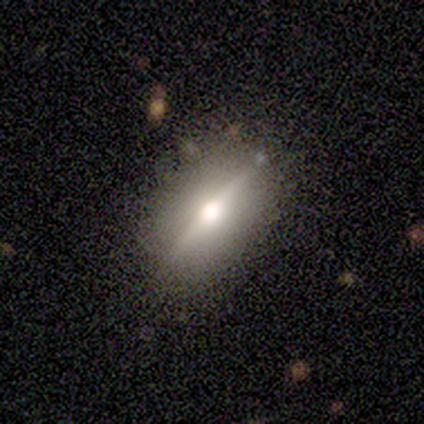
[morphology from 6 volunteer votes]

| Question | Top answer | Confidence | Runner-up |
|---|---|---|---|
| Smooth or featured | featured or disk | 67% | smooth (33%) |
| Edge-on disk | yes | 100% | — |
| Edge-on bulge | rounded | 100% | — |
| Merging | none | 83% | major disturbance (17%) |